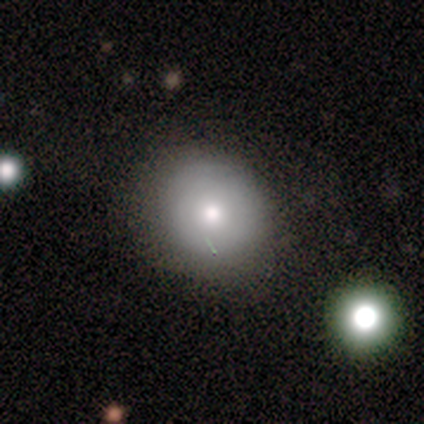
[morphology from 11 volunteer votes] Volunteers were most divided on "how rounded": round: 67%, in between: 33%, cigar-shaped: 0%. More confident: smooth or featured — smooth (82%); merging — none (70%).